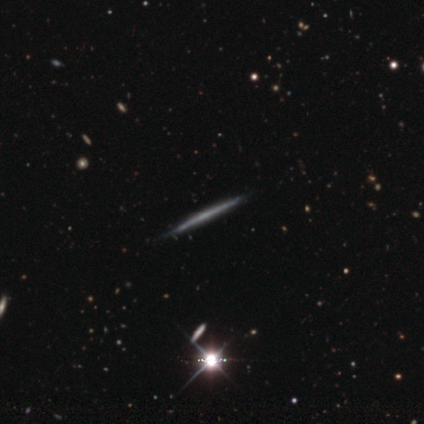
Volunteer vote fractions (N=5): featured or disk 80%, star or artifact 20%, smooth 0%. Down the decision tree: edge-on disk — yes (100%); edge-on bulge — none (100%); merging — none (50%, tied with minor disturbance).